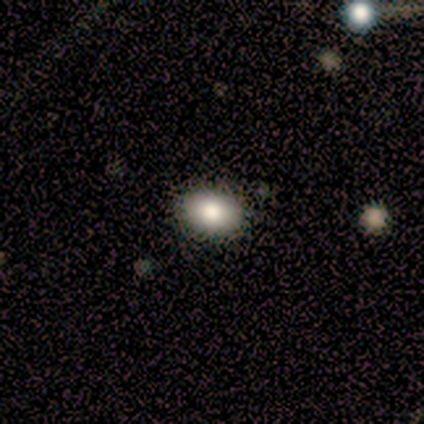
A smooth galaxy with no disk features (80%) that is in between round and cigar-shaped (75%).

Vote fractions:
- Smooth or featured? smooth: 80% / featured or disk: 20% / star or artifact: 0%
- How rounded? in between: 75% / round: 25% / cigar-shaped: 0%
- Merging? none: 100% / minor disturbance: 0% / major disturbance: 0% / merger: 0%